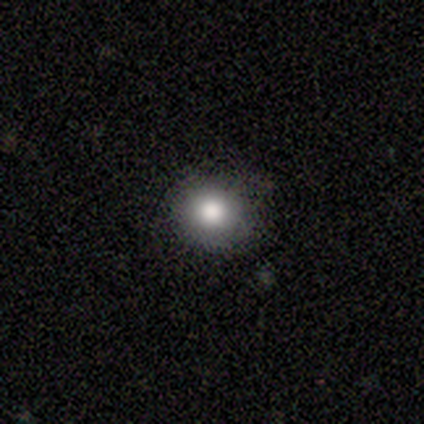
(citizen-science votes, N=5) Smooth or featured: smooth — 80% (featured or disk — 20%)
How rounded: round — 100%
Merging: none — 100%